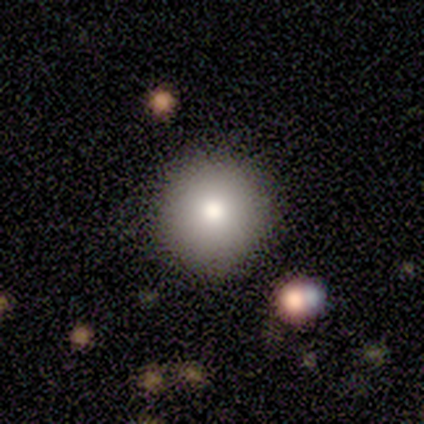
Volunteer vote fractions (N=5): Smooth or featured? smooth (80%)
How rounded? round (100%)
Merging? none (100%)